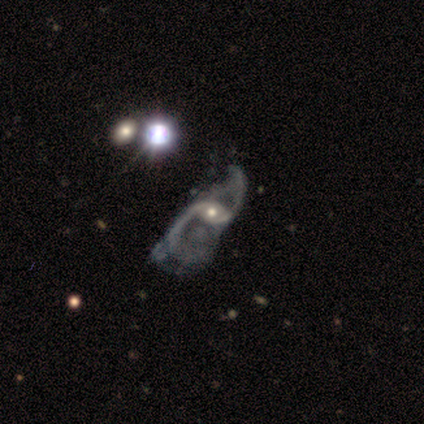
Overall: featured or disk (80%). Edge-on disk: no (100%). Bar: no (62%). Spiral arms: yes (91%). Spiral arm count: 2 (90%). Spiral winding: loose (93%). Bulge size: moderate (50%; small 47%). Merging: major disturbance (47%; none 13%).